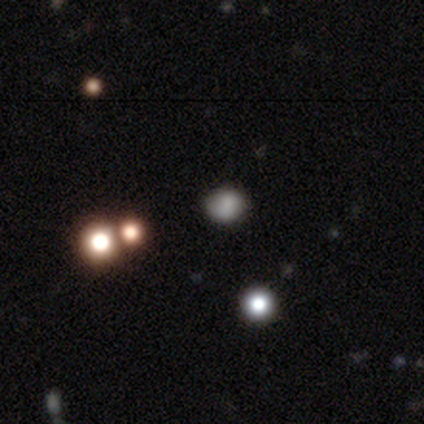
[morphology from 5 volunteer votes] smooth_or_featured: smooth (p=0.60) [alt: featured or disk p=0.20]
how_rounded: round (p=0.67) [alt: in between p=0.33]
merging: none (p=1.00)